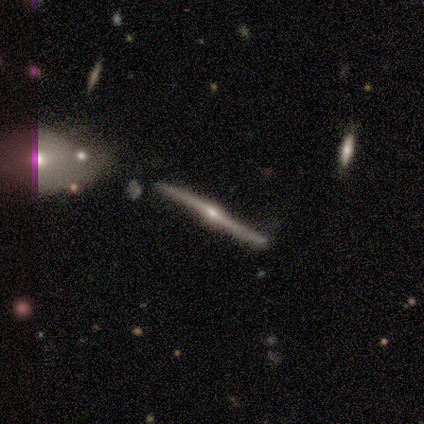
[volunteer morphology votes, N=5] Smooth or featured: featured or disk — 100%
Edge-on disk: yes — 100%
Edge-on bulge: rounded — 100%
Merging: none — 60% (minor disturbance — 40%)